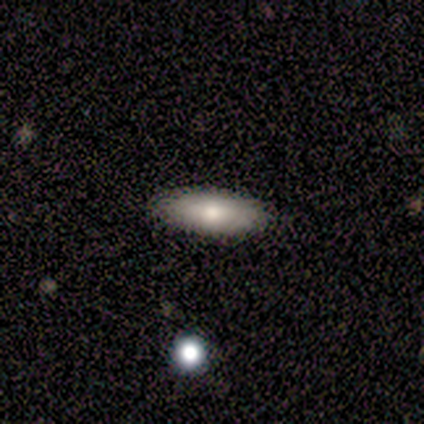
Overall: smooth (60%; featured or disk 40%). How rounded: in between (100%). Merging: none (100%).